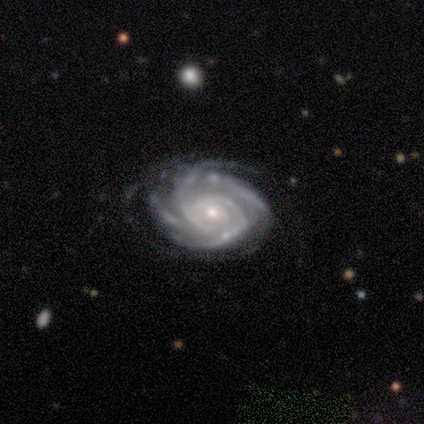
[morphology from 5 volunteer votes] Smooth or featured?
  - featured or disk: 100% *
  - smooth: 0%
  - star or artifact: 0%
Edge-on disk?
  - no: 100% *
  - yes: 0%
Bar?
  - strong: 40% * (tied)
  - no: 40% * (tied)
  - weak: 20%
Spiral arms?
  - yes: 100% *
  - no: 0%
Spiral winding?
  - tight: 60% *
  - medium: 40%
  - loose: 0%
Spiral arm count?
  - 4: 60% *
  - 3: 40%
  - 1: 0%
  - 2: 0%
  - more than 4: 0%
  - can't tell: 0%
Bulge size?
  - moderate: 60% *
  - small: 40%
  - dominant: 0%
  - large: 0%
  - none: 0%
Merging?
  - none: 40% * (tied)
  - minor disturbance: 40% * (tied)
  - merger: 20%
  - major disturbance: 0%